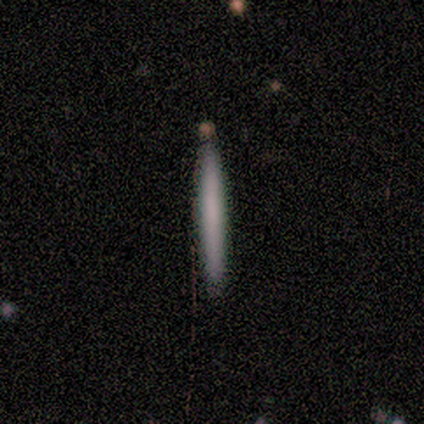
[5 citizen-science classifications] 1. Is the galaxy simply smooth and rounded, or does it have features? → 60% smooth, 40% featured or disk, 0% star or artifact.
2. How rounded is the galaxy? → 100% cigar-shaped, 0% round, 0% in between.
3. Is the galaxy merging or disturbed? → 60% none, 40% minor disturbance, 0% major disturbance, 0% merger.